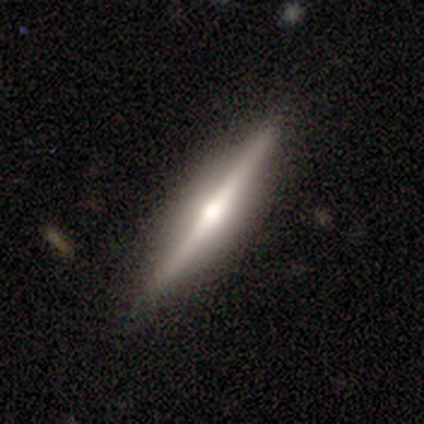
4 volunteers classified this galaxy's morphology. This is likely a featured or disk galaxy (75%). It is clearly viewed edge-on (100%). Edge-on bulge: likely rounded (67%). Merging: likely none (75%).